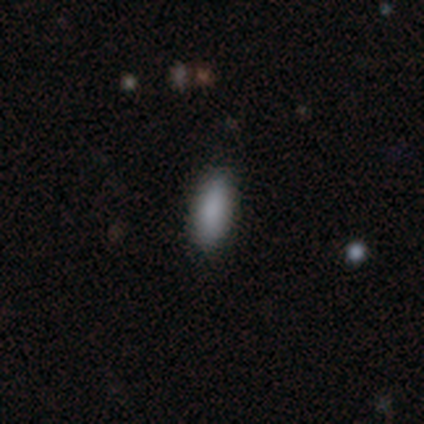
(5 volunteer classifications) Smooth or featured? smooth (100%)
How rounded? in between (80%)
Merging? none (100%)